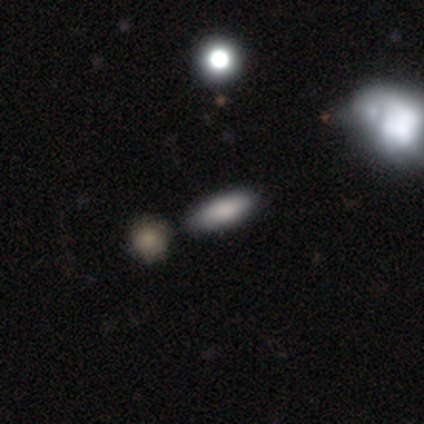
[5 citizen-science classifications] A smooth galaxy with no disk features (80%) that is in between round and cigar-shaped (75%).

Vote fractions:
- Smooth or featured? smooth: 80% / star or artifact: 20% / featured or disk: 0%
- How rounded? in between: 75% / cigar-shaped: 25% / round: 0%
- Merging? none: 75% / minor disturbance: 25% / major disturbance: 0% / merger: 0%